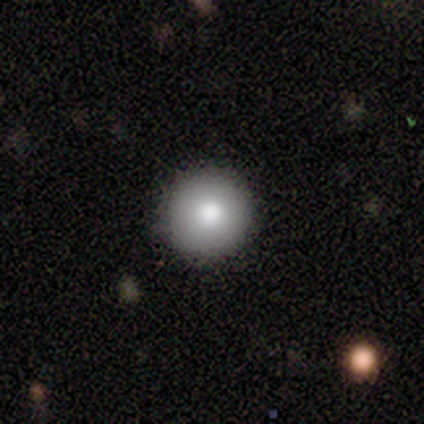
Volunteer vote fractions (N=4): Morphology: type=smooth (75%); roundness=round (100%); merging=none (100%).